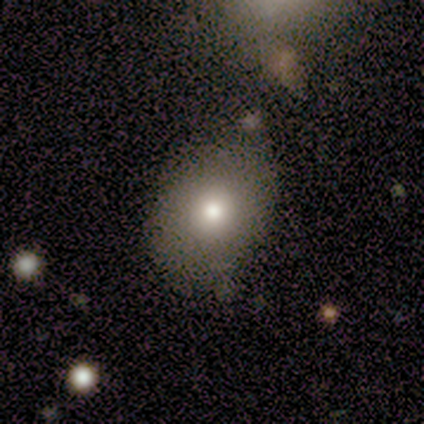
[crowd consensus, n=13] This appears to be a smooth galaxy with no disk features (85%) that is in between round and cigar-shaped (73%). Merging: none (55%).